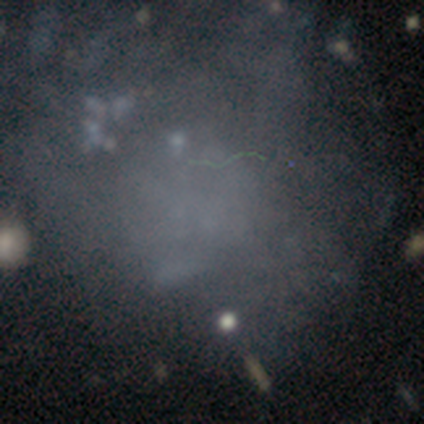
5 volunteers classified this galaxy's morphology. Smooth or featured: star or artifact — 60% (smooth — 40%)